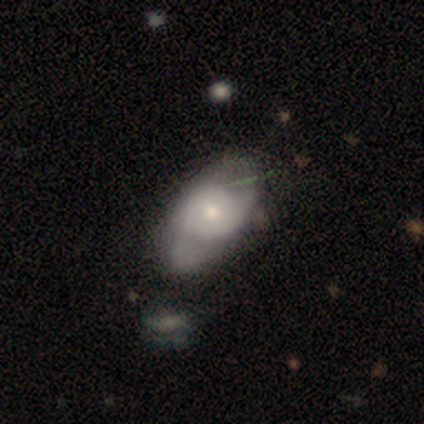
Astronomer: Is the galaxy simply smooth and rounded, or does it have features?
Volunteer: smooth — 80%.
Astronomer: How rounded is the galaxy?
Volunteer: in between — 100%.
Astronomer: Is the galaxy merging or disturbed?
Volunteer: minor disturbance — 60%.